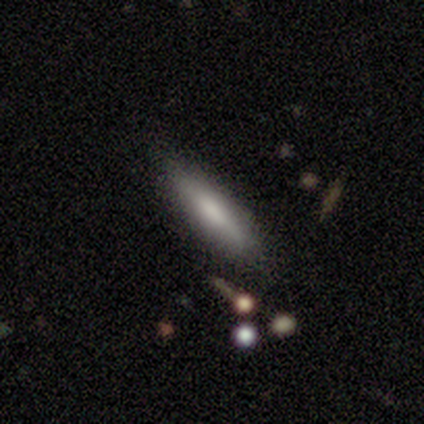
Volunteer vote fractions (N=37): A smooth galaxy with no disk features (70%) that is cigar-shaped (88%). Merging: none (95%).